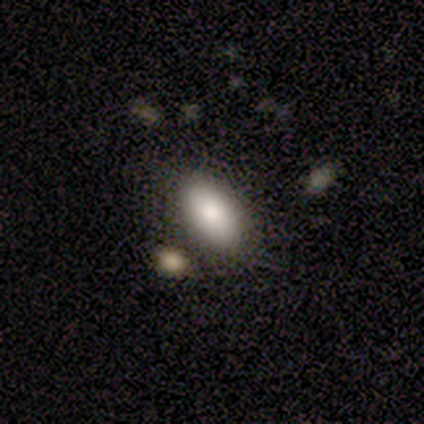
This is clearly a smooth galaxy (80%). How rounded: clearly in between (100%). Merging: clearly none (80%).